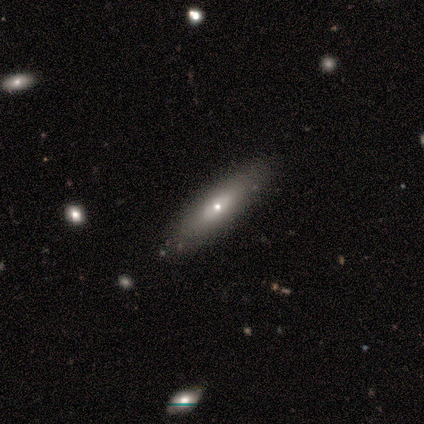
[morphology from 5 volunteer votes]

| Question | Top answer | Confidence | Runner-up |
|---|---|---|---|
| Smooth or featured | smooth | 60% | featured or disk (40%) |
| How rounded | cigar-shaped | 67% | in between (33%) |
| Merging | none | 60% | minor disturbance (40%) |